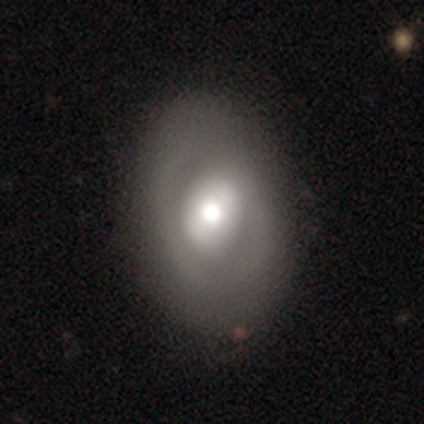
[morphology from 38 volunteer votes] Smooth or featured? featured or disk (50%)
Edge-on disk? no (95%)
Bar? no (56%)
Spiral arms? no (67%)
Bulge size? moderate (67%)
Merging? none (51%)